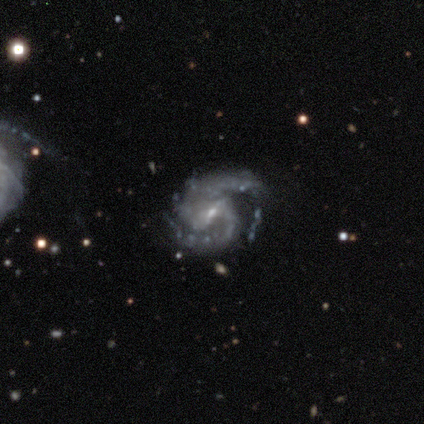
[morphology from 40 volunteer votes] This appears to be a featured or disk galaxy (92%) with a weak bar (62%), 2 (97%) medium (57%) spiral arms (100%) and a small central bulge (84%). Merging: none (58%).